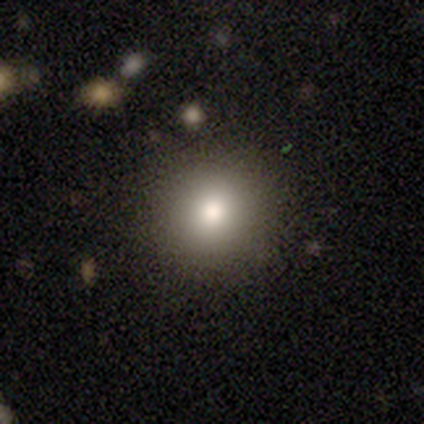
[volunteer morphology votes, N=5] A smooth galaxy with no disk features (40%, tied with star or artifact) that is round (100%). Merging: none (100%).